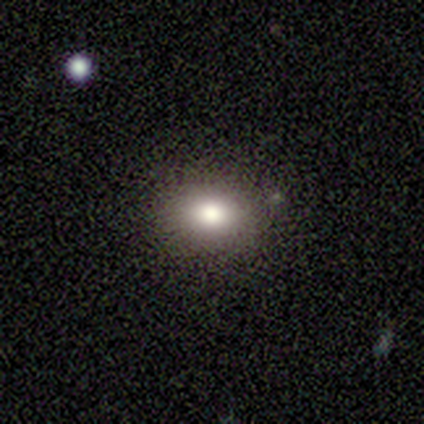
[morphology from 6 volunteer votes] type=smooth (83%); roundness=round (60%); merging=none (60%).